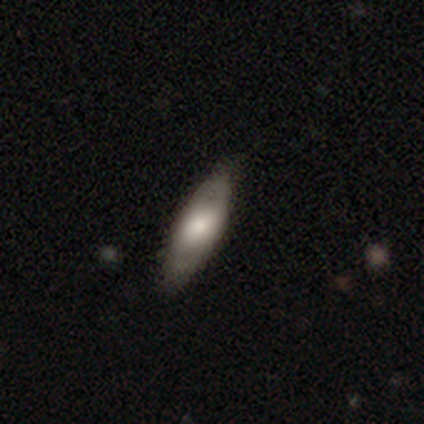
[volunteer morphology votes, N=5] smooth_or_featured: smooth (p=0.60) [alt: featured or disk p=0.20]
how_rounded: in between (p=0.67) [alt: cigar-shaped p=0.33]
merging: none (p=1.00)